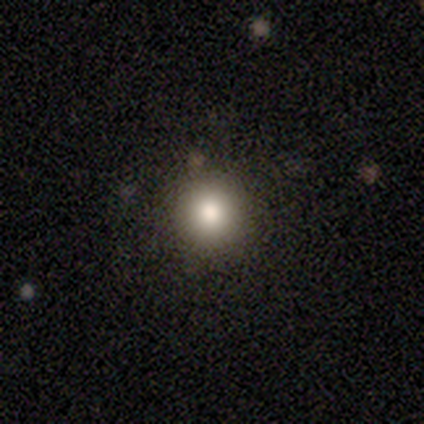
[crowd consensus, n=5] Smooth or featured?
  - smooth: 100% *
  - featured or disk: 0%
  - star or artifact: 0%
How rounded?
  - round: 100% *
  - in between: 0%
  - cigar-shaped: 0%
Merging?
  - none: 100% *
  - minor disturbance: 0%
  - major disturbance: 0%
  - merger: 0%